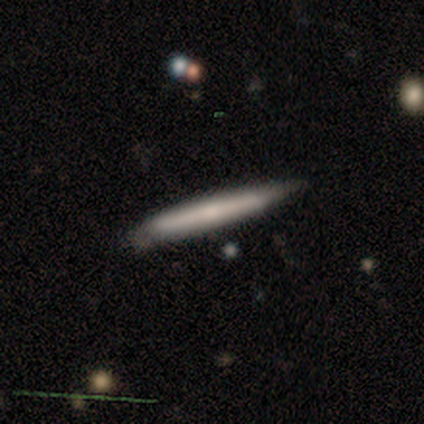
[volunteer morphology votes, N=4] Smooth or featured? smooth (75%)
How rounded? cigar-shaped (100%)
Merging? none (100%)